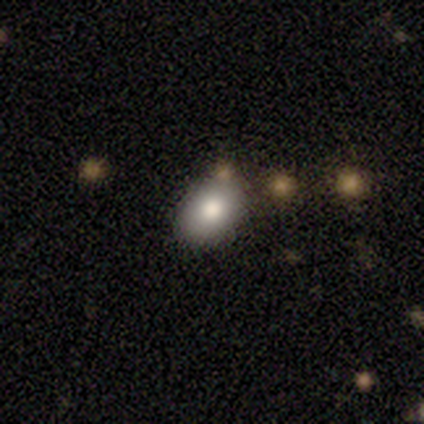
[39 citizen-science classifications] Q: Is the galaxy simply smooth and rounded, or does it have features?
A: smooth — 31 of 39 (79%).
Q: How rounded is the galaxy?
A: in between — 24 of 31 (77%).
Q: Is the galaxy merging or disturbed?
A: none — 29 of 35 (83%).